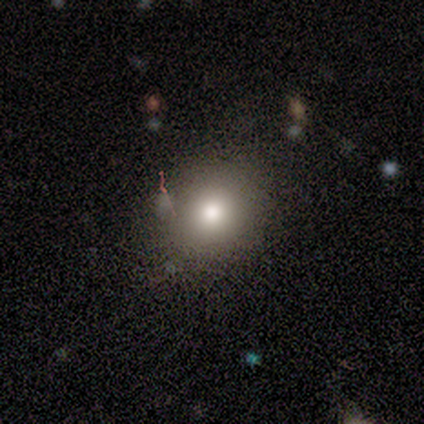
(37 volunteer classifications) smooth-or-featured: smooth: 70% | star or artifact: 19% | featured or disk: 11%
  how-rounded: round: 73% | in between: 27% | cigar-shaped: 0%
  merging: none: 77% | minor disturbance: 13% | major disturbance: 7% | merger: 3%